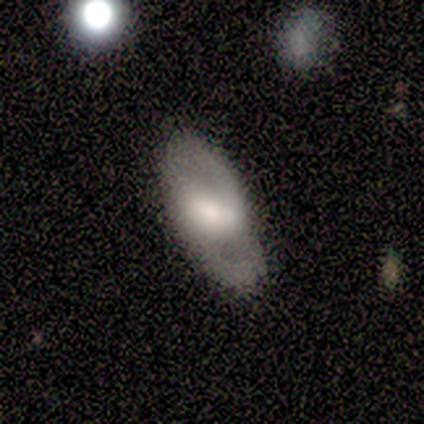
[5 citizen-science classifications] smooth-or-featured: smooth: 60% | featured or disk: 20% | star or artifact: 20%
  how-rounded: cigar-shaped: 67% | in between: 33% | round: 0%
  merging: none: 50% | minor disturbance: 25% | merger: 25% | major disturbance: 0%